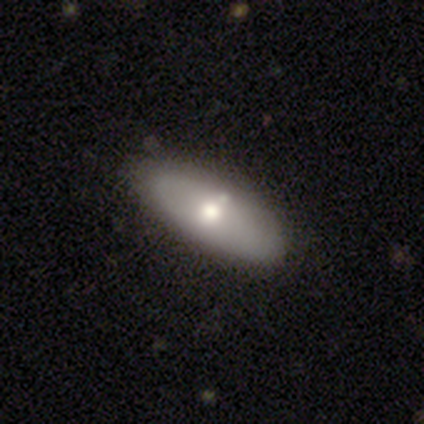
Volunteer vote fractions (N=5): smooth-or-featured: smooth: 80% | featured or disk: 20% | star or artifact: 0%
  how-rounded: in between: 50% | round: 25% | cigar-shaped: 25%
  merging: none: 100% | minor disturbance: 0% | major disturbance: 0% | merger: 0%